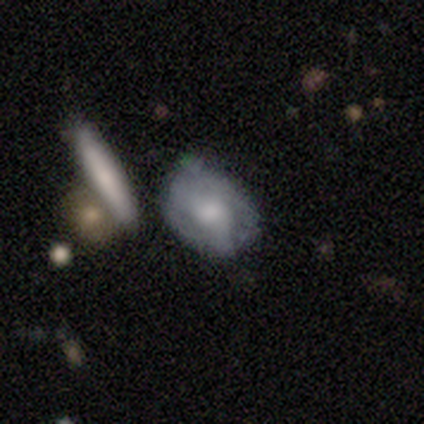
smooth-or-featured: smooth: 51% | featured or disk: 41% | star or artifact: 8%
  how-rounded: in between: 70% | round: 20% | cigar-shaped: 10%
  merging: none: 47% | minor disturbance: 39% | merger: 8% | major disturbance: 6%